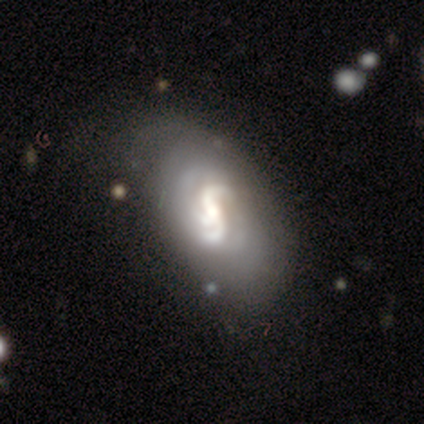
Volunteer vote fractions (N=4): Volunteers were most divided on "bar" (2-way tie): strong: 50%, weak: 50%, no: 0%. More confident: smooth or featured — featured or disk (100%); edge-on disk — no (100%); spiral arms — yes (100%); spiral arm count — 2 (75%); spiral winding — loose (50%); bulge size — small (50%); merging — none (50%).